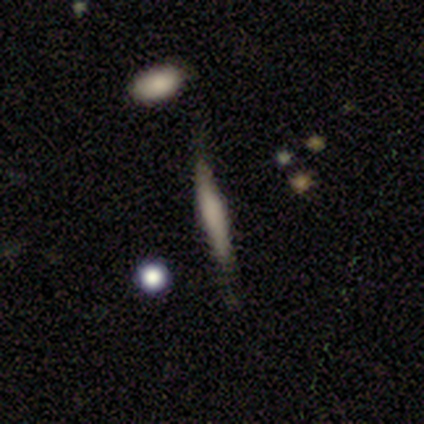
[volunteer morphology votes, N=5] Q: Smooth or featured?
A: featured or disk (60%); runner-up: smooth (40%)
Q: Edge-on disk?
A: yes (100%)
Q: Edge-on bulge?
A: boxy (33%); tied with: none (33%); rounded (33%)
Q: Merging?
A: minor disturbance (60%); runner-up: none (40%)